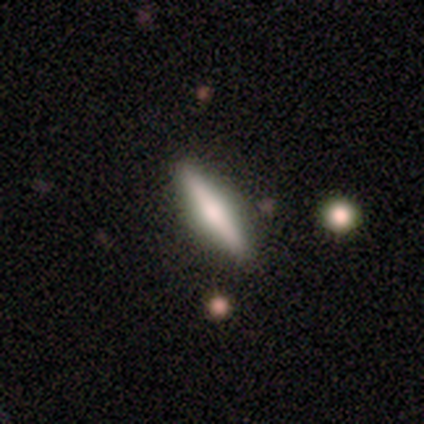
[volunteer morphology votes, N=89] This appears to be a featured or disk galaxy (53%) viewed edge-on (100%) with a rounded central bulge (79%). Merging: none (93%).